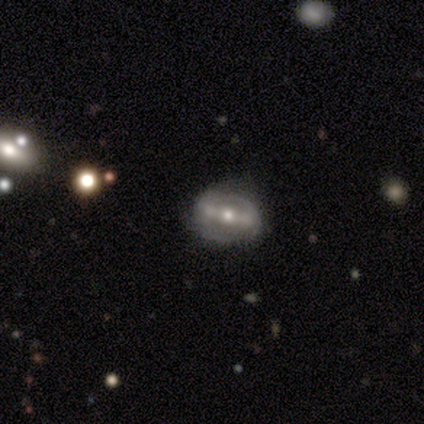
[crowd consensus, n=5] A featured or disk galaxy (60%) with a strong bar (100%), 2 (50%, tied with can't tell) medium (50%, tied with loose) spiral arms (67%) and a small central bulge (100%).

Vote fractions:
- Smooth or featured? featured or disk: 60% / smooth: 40% / star or artifact: 0%
- Edge-on disk? no: 100% / yes: 0%
- Bar? strong: 100% / weak: 0% / no: 0%
- Spiral arms? yes: 67% / no: 33%
- Spiral winding? medium: 50% (tied) / loose: 50% (tied) / tight: 0%
- Spiral arm count? 2: 50% (tied) / can't tell: 50% (tied) / 1: 0% / 3: 0% / 4: 0% / more than 4: 0%
- Bulge size? small: 100% / dominant: 0% / large: 0% / moderate: 0% / none: 0%
- Merging? none: 40% (tied) / minor disturbance: 40% (tied) / merger: 20% / major disturbance: 0%